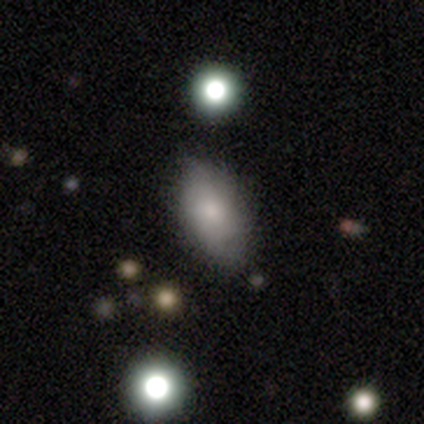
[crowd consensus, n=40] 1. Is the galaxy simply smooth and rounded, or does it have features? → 85% smooth, 12% featured or disk, 2% star or artifact.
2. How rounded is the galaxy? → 97% in between, 3% round, 0% cigar-shaped.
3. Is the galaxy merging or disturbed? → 74% none, 18% minor disturbance, 8% major disturbance, 0% merger.